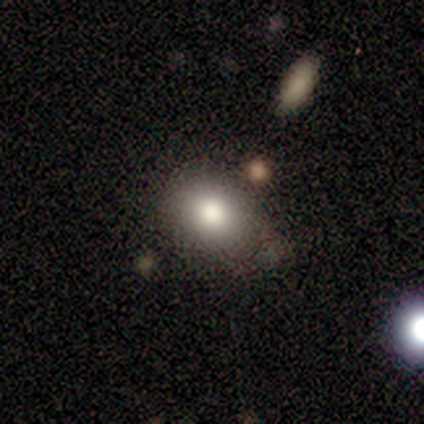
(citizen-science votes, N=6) A smooth galaxy with no disk features (83%) that is in between round and cigar-shaped (80%).

Vote fractions:
- Smooth or featured? smooth: 83% / featured or disk: 17% / star or artifact: 0%
- How rounded? in between: 80% / round: 20% / cigar-shaped: 0%
- Merging? none: 83% / minor disturbance: 17% / major disturbance: 0% / merger: 0%